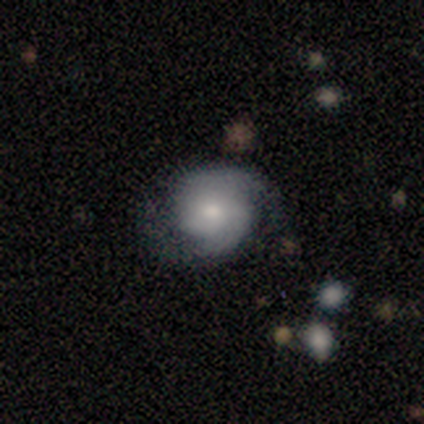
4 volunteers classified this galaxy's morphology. smooth_or_featured: featured or disk (p=1.00)
disk_edge_on: no (p=1.00)
bar: no (p=0.50) [alt: strong p=0.25]
has_spiral_arms: yes (p=0.75) [alt: no p=0.25]
spiral_winding: medium (p=0.67) [alt: loose p=0.33]
spiral_arm_count: 2 (p=0.67) [alt: 1 p=0.33]
bulge_size: moderate (p=0.50) [tied with: small p=0.50]
merging: none (p=0.75) [alt: minor disturbance p=0.25]